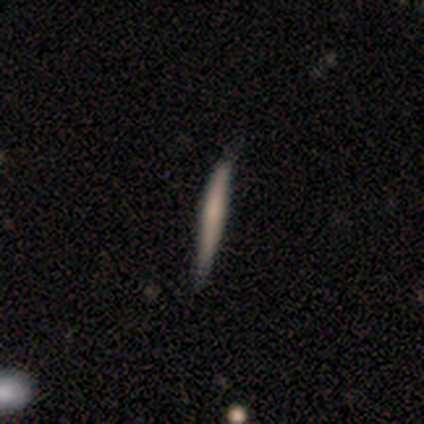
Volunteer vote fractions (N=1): smooth-or-featured: smooth: 100% | featured or disk: 0% | star or artifact: 0%
  how-rounded: cigar-shaped: 100% | round: 0% | in between: 0%
  merging: none: 100% | minor disturbance: 0% | major disturbance: 0% | merger: 0%